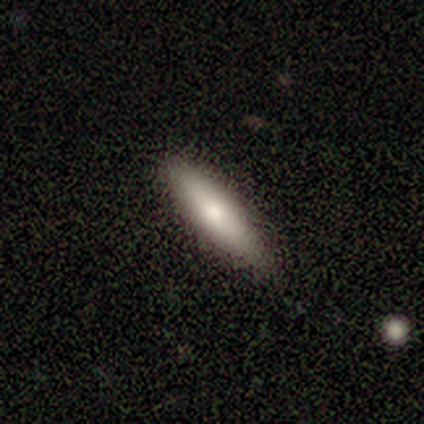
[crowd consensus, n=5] This appears to be a smooth galaxy with no disk features (80%) that is cigar-shaped (75%). Merging: none (100%).